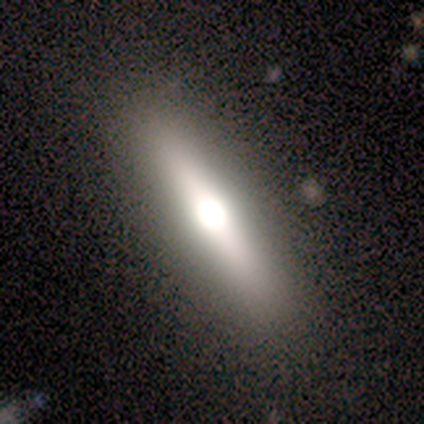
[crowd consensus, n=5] smooth_or_featured: smooth (p=0.40) [tied with: featured or disk p=0.40]
how_rounded: cigar-shaped (p=1.00)
merging: none (p=1.00)